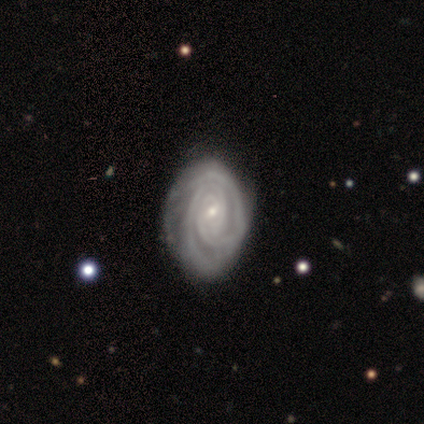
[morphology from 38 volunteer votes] Volunteers were most divided on "spiral arm count": 2: 32%, can't tell: 29%, 3: 21%, more than 4: 15%, 1: 3%, 4: 0%. More confident: edge-on disk — no (97%); spiral arms — yes (97%); smooth or featured — featured or disk (95%); bulge size — small (86%); spiral winding — tight (79%); bar — no (60%); merging — none (53%).